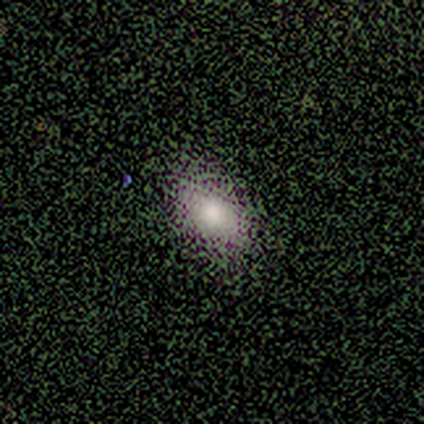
Smooth or featured? 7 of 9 (78%) said smooth. How rounded? 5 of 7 (71%) said in between. Merging? 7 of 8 (88%) said none.